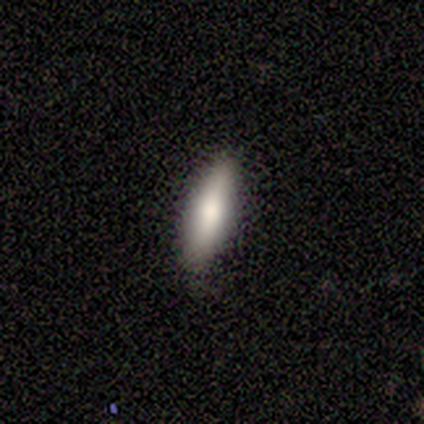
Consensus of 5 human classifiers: This appears to be a smooth galaxy with no disk features (100%) that is cigar-shaped (80%). Merging: none (80%).